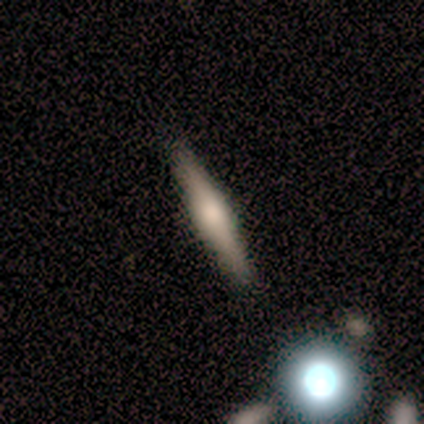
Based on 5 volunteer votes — Q: Smooth or featured?
A: featured or disk (60%); runner-up: smooth (40%)
Q: Edge-on disk?
A: yes (100%)
Q: Edge-on bulge?
A: rounded (67%); runner-up: boxy (33%)
Q: Merging?
A: none (80%); runner-up: major disturbance (20%)